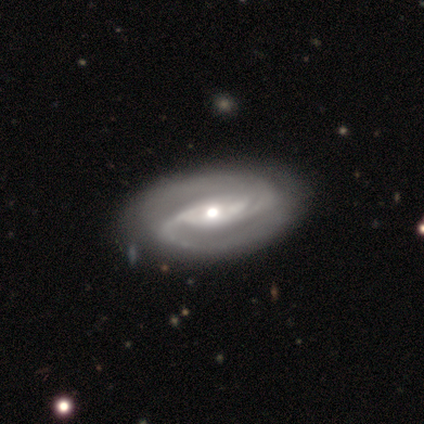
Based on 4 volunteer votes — smooth-or-featured: featured or disk: 100% | smooth: 0% | star or artifact: 0%
  disk-edge-on: no: 100% | yes: 0%
    bar: no: 75% | strong: 25% | weak: 0%
    has-spiral-arms: yes: 100% | no: 0%
      spiral-winding: tight: 50% | medium: 25% | loose: 25%
      spiral-arm-count: 2: 75% | 3: 25% | 1: 0% | 4: 0% | more than 4: 0% | can't tell: 0%
    bulge-size: large: 50% (tied) | moderate: 50% (tied) | dominant: 0% | small: 0% | none: 0%
  merging: none: 75% | minor disturbance: 25% | major disturbance: 0% | merger: 0%